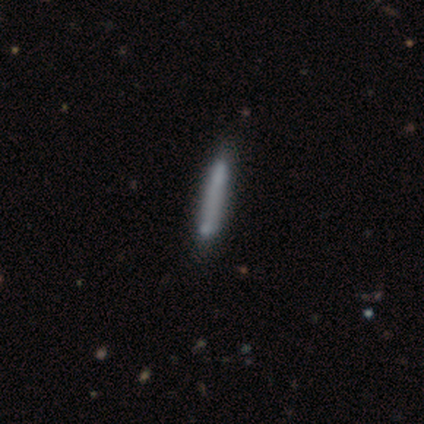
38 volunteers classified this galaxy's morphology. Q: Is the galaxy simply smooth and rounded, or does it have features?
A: smooth — 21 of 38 (55%).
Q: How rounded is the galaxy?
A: cigar-shaped — 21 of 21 (100%).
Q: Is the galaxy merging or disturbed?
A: none — 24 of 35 (69%).